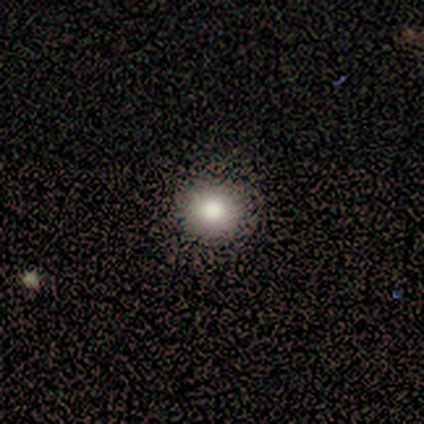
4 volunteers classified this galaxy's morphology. Smooth or featured? smooth (50%, tied with star or artifact)
How rounded? round (100%)
Merging? minor disturbance (50%, tied with major disturbance)